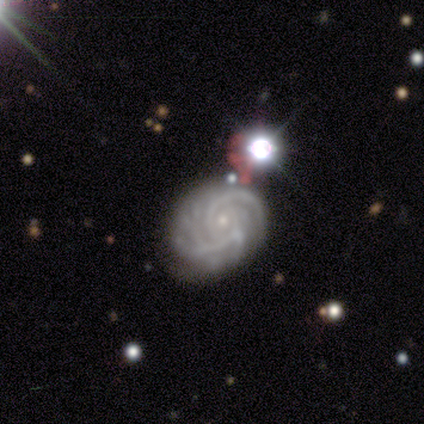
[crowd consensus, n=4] Smooth or featured? featured or disk (100%)
Edge-on disk? no (100%)
Bar? no (50%)
Spiral arms? yes (100%)
Spiral winding? tight (75%)
Spiral arm count? 3 (50%, tied with can't tell)
Bulge size? small (50%)
Merging? none (75%)